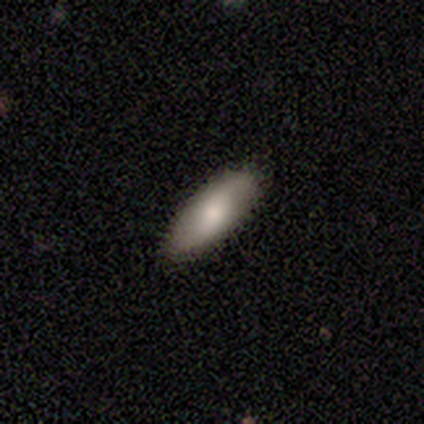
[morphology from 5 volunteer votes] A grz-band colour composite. It shows a smooth galaxy with no disk features (100%) that is in between round and cigar-shaped (60%). Merging: none (60%).